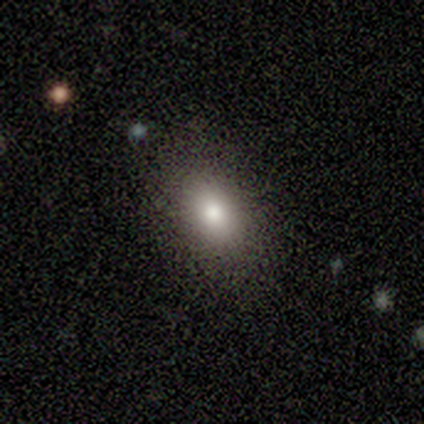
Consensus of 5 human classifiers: This appears to be a smooth galaxy with no disk features (80%) that is in between round and cigar-shaped (100%). Merging: none (80%).